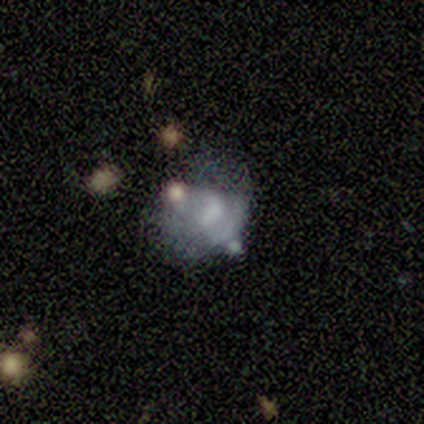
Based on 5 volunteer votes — Smooth or featured? star or artifact (60%)